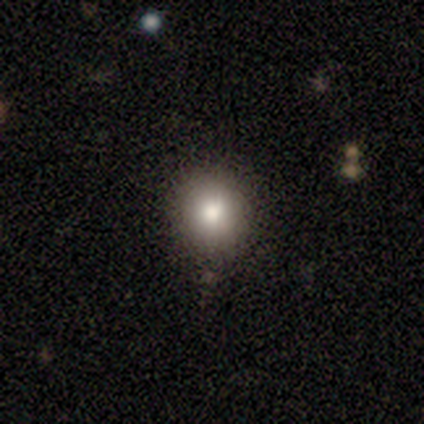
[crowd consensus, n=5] smooth_or_featured: smooth (p=1.00)
how_rounded: round (p=1.00)
merging: none (p=0.80) [alt: minor disturbance p=0.20]